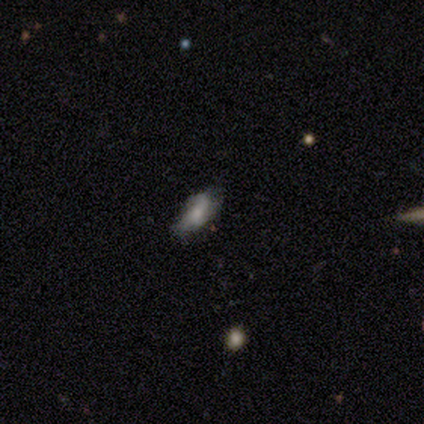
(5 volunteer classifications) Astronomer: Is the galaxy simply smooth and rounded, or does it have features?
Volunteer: smooth — 80%.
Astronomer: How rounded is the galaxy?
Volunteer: in between — 100%.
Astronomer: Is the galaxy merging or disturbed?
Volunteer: none — 100%.